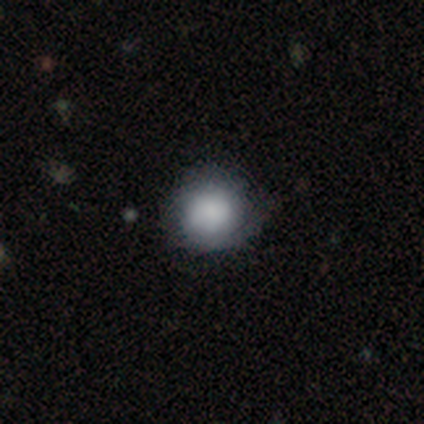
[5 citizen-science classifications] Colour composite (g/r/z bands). It shows a smooth galaxy with no disk features (60%) that is round (100%). Merging: none (100%).